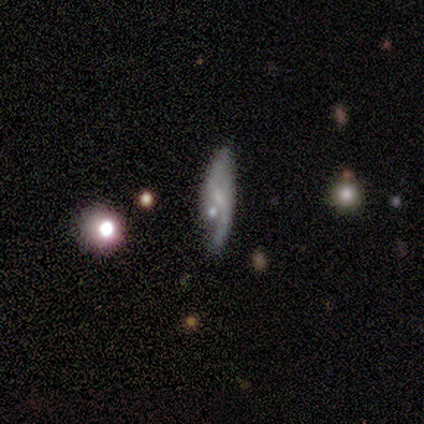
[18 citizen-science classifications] Smooth or featured? 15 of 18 (83%) said featured or disk. Edge-on disk? 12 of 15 (80%) said no. Bar? 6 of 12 (50%) said no. Spiral arms? 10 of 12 (83%) said yes. Spiral winding? 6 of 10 (60%) said loose. Spiral arm count? 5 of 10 (50%) said 2. Bulge size? 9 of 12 (75%) said small. Merging? 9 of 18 (50%) said none.